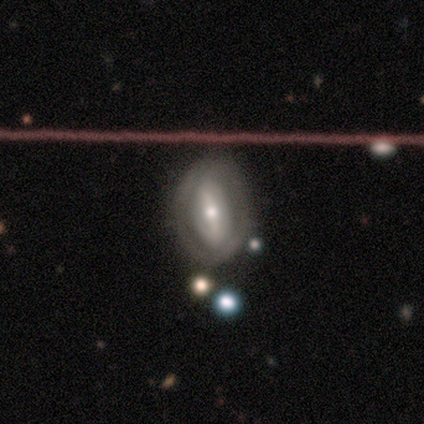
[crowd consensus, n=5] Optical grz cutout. It shows a featured or disk galaxy (60%) with a strong bar (100%), no spiral arms (67%) and a small central bulge (67%). Merging: none (80%).